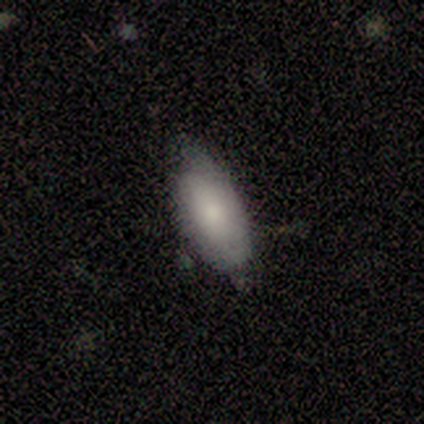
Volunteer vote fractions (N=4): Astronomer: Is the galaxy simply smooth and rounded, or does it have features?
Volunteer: smooth — 75%.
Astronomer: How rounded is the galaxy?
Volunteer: in between — 100%.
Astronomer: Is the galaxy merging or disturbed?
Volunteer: none — 75%.